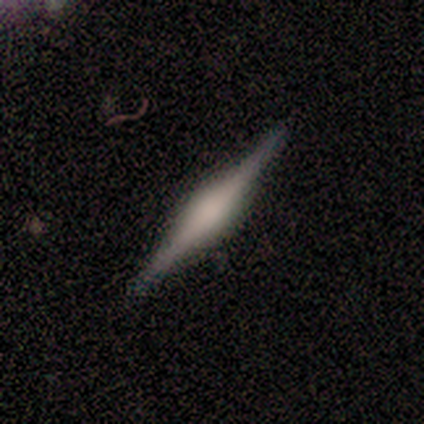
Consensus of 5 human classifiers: Q: Smooth or featured?
A: smooth (60%); runner-up: featured or disk (40%)
Q: How rounded?
A: cigar-shaped (100%)
Q: Merging?
A: none (80%); runner-up: major disturbance (20%)